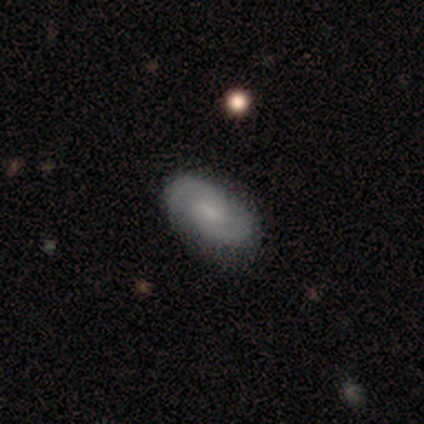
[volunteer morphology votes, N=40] featured or disk 57%, smooth 35%, star or artifact 8%. Down the decision tree: edge-on disk — no (96%); bar — weak (50%, tied with no); spiral arms — yes (95%); spiral arm count — 2 (90%); spiral winding — medium (48%); bulge size — small (45%); merging — none (81%).